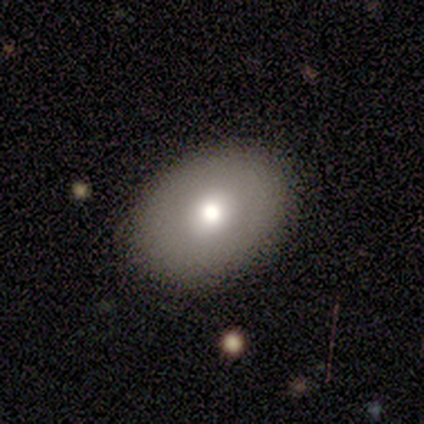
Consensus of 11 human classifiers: Morphology: type=smooth (82%); roundness=in between (89%); merging=none (90%).